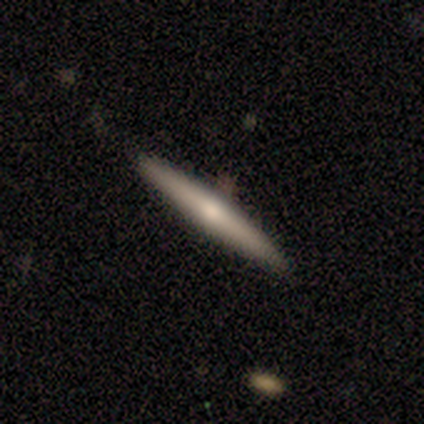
smooth_or_featured: featured or disk (p=0.55) [alt: smooth p=0.45]
disk_edge_on: yes (p=1.00)
edge_on_bulge: rounded (p=0.83) [alt: none p=0.17]
merging: none (p=0.82) [alt: minor disturbance p=0.18]